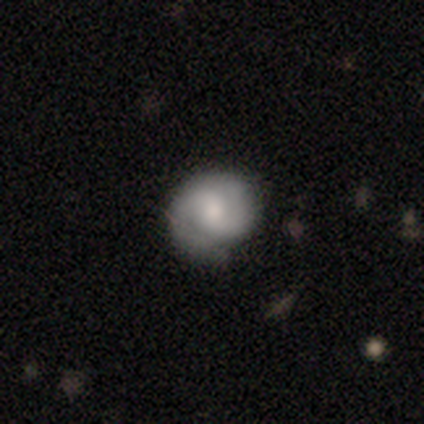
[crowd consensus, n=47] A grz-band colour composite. It shows a featured or disk galaxy (57%) with a weak bar (54%), 2 (81%) tight (65%) spiral arms (100%) and a small central bulge (42%). Merging: none (73%).